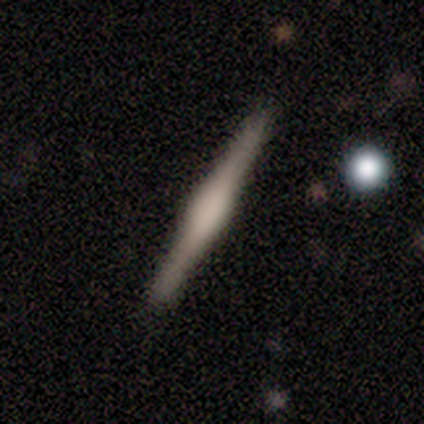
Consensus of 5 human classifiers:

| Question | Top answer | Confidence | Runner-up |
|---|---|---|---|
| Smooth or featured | smooth | 60% | featured or disk (40%) |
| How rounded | cigar-shaped | 100% | — |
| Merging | none | 100% | — |